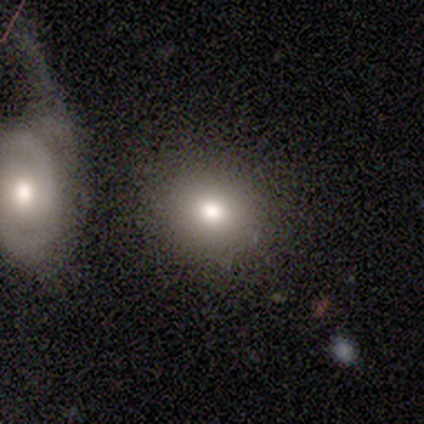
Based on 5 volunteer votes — smooth-or-featured: featured or disk: 60% | smooth: 40% | star or artifact: 0%
  disk-edge-on: no: 100% | yes: 0%
    bar: no: 100% | strong: 0% | weak: 0%
    has-spiral-arms: no: 100% | yes: 0%
    bulge-size: moderate: 67% | large: 33% | dominant: 0% | small: 0% | none: 0%
  merging: none: 100% | minor disturbance: 0% | major disturbance: 0% | merger: 0%